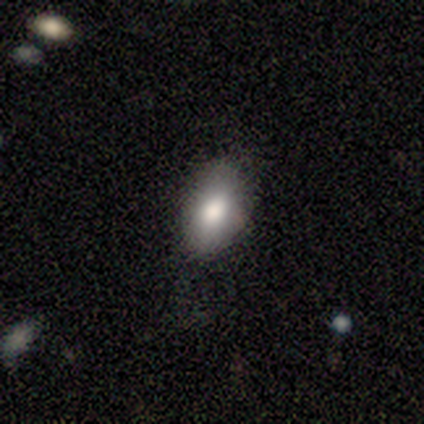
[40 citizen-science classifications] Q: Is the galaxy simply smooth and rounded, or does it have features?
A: smooth — 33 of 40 (82%).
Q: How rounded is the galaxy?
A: in between — 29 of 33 (88%).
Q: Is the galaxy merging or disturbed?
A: none — 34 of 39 (87%).